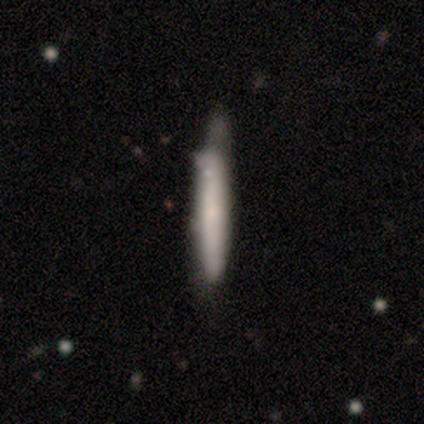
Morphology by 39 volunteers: smooth_or_featured: smooth (p=0.62) [alt: featured or disk p=0.33]
how_rounded: cigar-shaped (p=0.96) [alt: in between p=0.04]
merging: minor disturbance (p=0.35) [alt: none p=0.24]